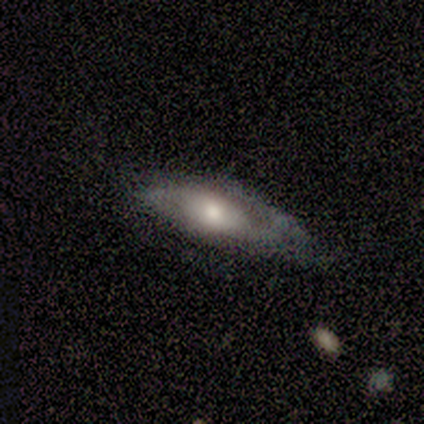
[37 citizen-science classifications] Volunteers were most divided on "smooth or featured": featured or disk: 54%, smooth: 38%, star or artifact: 8%. More confident: bar — no (75%); spiral arm count — 2 (75%); bulge size — moderate (75%); spiral winding — medium (75%); merging — none (71%); spiral arms — yes (67%); edge-on disk — no (60%).